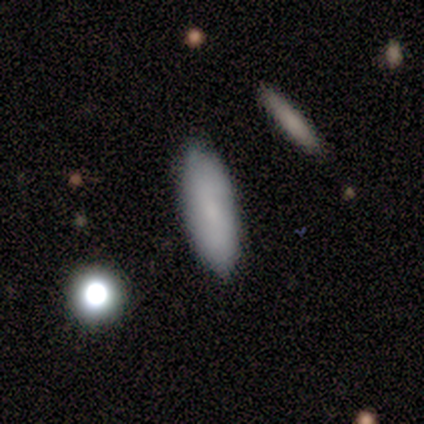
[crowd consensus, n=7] smooth-or-featured: smooth: 100% | featured or disk: 0% | star or artifact: 0%
  how-rounded: cigar-shaped: 57% | in between: 43% | round: 0%
  merging: none: 86% | merger: 14% | minor disturbance: 0% | major disturbance: 0%